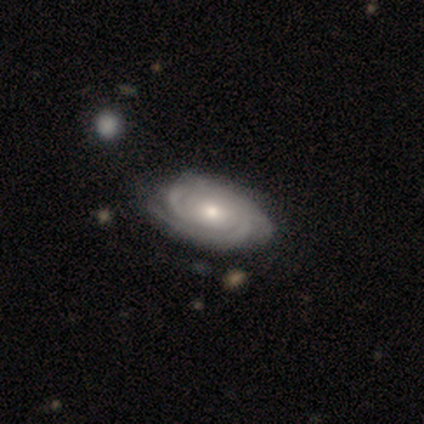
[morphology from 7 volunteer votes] Smooth or featured?
  - featured or disk: 86% *
  - smooth: 14%
  - star or artifact: 0%
Edge-on disk?
  - no: 100% *
  - yes: 0%
Bar?
  - weak: 67% *
  - no: 33%
  - strong: 0%
Spiral arms?
  - yes: 83% *
  - no: 17%
Spiral winding?
  - tight: 100% *
  - medium: 0%
  - loose: 0%
Spiral arm count?
  - 2: 60% *
  - 3: 20%
  - can't tell: 20%
  - 1: 0%
  - 4: 0%
  - more than 4: 0%
Bulge size?
  - moderate: 50% * (tied)
  - small: 50% * (tied)
  - dominant: 0%
  - large: 0%
  - none: 0%
Merging?
  - none: 43% *
  - minor disturbance: 29%
  - major disturbance: 29%
  - merger: 0%